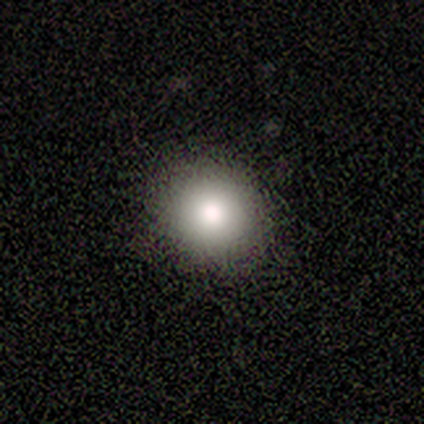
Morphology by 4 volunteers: Smooth or featured: smooth — 50% (tied with featured or disk — 50%)
How rounded: round — 100%
Merging: none — 50% (minor disturbance — 25%)